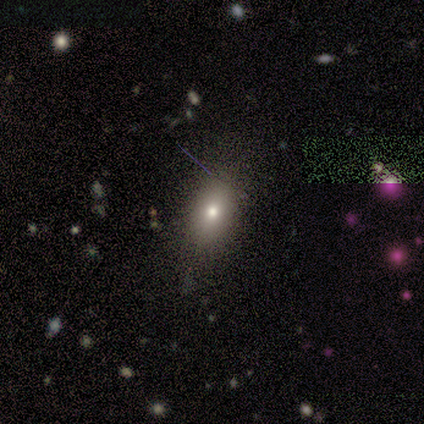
Smooth or featured? 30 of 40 (75%) said smooth. How rounded? 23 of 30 (77%) said in between. Merging? 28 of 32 (88%) said none.